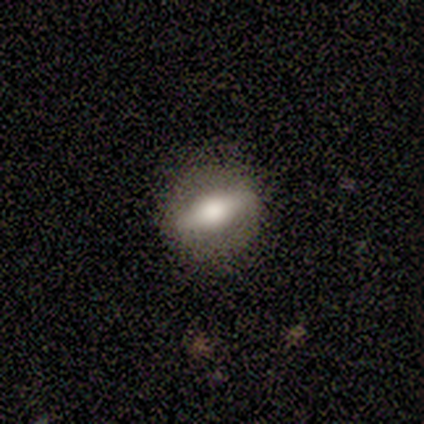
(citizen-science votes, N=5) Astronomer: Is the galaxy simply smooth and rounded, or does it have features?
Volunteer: featured or disk — 60% (runner-up: star or artifact, 40%).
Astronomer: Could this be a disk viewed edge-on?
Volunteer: yes — 67%.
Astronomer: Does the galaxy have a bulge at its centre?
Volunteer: rounded — 100%.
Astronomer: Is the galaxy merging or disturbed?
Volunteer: none — 67%.